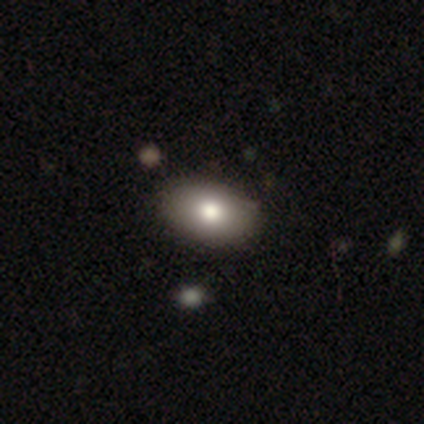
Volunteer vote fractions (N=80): Smooth or featured: smooth — 84% (featured or disk — 10%)
How rounded: in between — 87% (round — 13%)
Merging: none — 41% (merger — 7%)